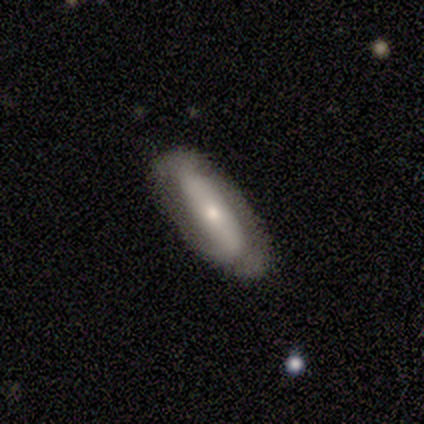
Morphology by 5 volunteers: Overall: featured or disk (80%). Edge-on disk: no (100%). Bar: strong (50%, tied with no). Spiral arms: yes (75%). Spiral arm count: can't tell (67%; 2 33%). Spiral winding: loose (67%; medium 33%). Bulge size: moderate (50%; large 25%). Merging: none (80%).